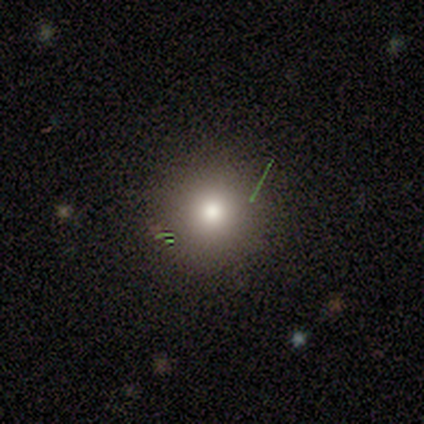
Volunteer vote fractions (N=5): Q: Smooth or featured?
A: smooth (80%); runner-up: star or artifact (20%)
Q: How rounded?
A: round (100%)
Q: Merging?
A: none (100%)